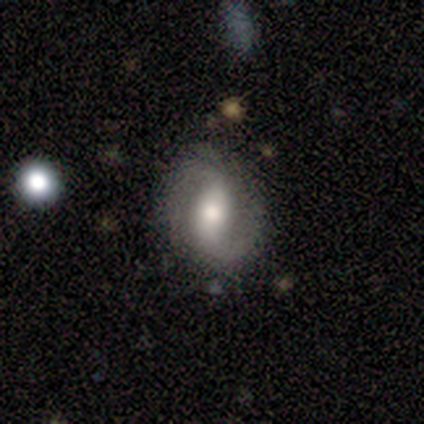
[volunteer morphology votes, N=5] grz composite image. It shows a featured or disk galaxy (80%) with a strong bar (67%), 2 (100%) medium (67%) spiral arms (100%) and a large central bulge (100%). Merging: none (60%).